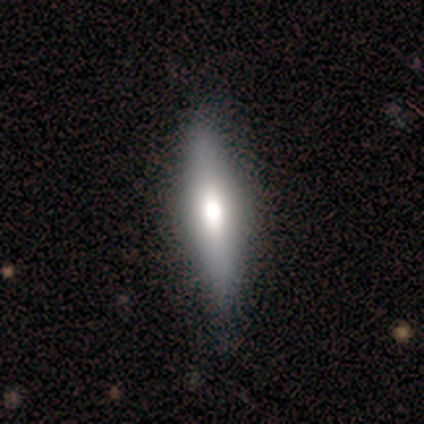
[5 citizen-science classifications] Morphology: type=smooth (60%); roundness=cigar-shaped (100%); merging=none (80%).